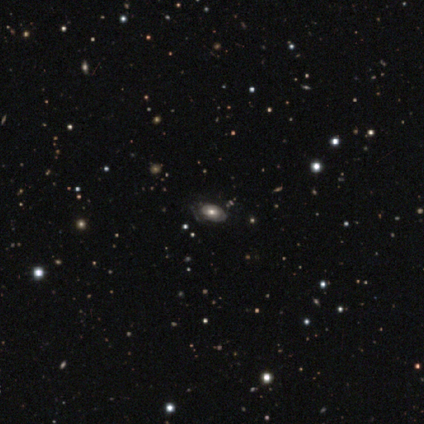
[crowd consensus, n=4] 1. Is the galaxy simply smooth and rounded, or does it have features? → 75% smooth, 25% star or artifact, 0% featured or disk.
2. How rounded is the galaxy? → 100% in between, 0% round, 0% cigar-shaped.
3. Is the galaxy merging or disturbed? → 100% none, 0% minor disturbance, 0% major disturbance, 0% merger.